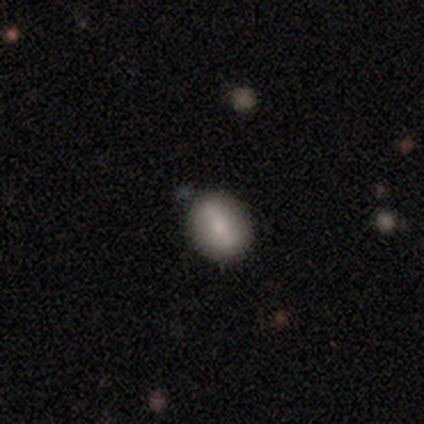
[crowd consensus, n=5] Smooth or featured: smooth — 60% (featured or disk — 40%)
How rounded: round — 100%
Merging: none — 100%